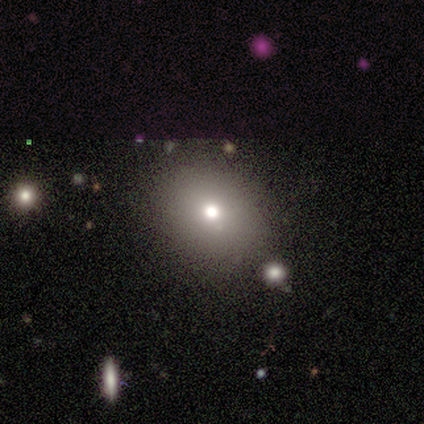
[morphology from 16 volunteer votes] Smooth or featured: smooth — 69% (featured or disk — 19%)
How rounded: round — 82% (in between — 18%)
Merging: none — 71% (minor disturbance — 21%)